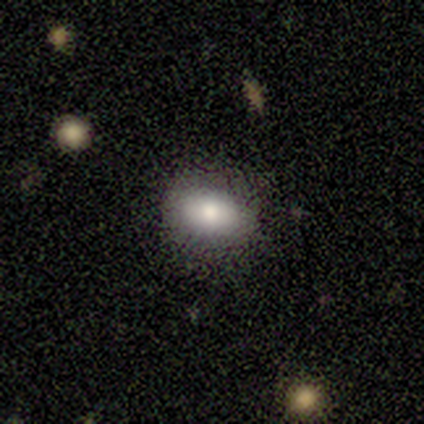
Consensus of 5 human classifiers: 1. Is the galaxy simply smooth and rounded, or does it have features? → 100% smooth, 0% featured or disk, 0% star or artifact.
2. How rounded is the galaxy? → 80% in between, 20% round, 0% cigar-shaped.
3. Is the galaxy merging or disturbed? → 80% none, 20% minor disturbance, 0% major disturbance, 0% merger.